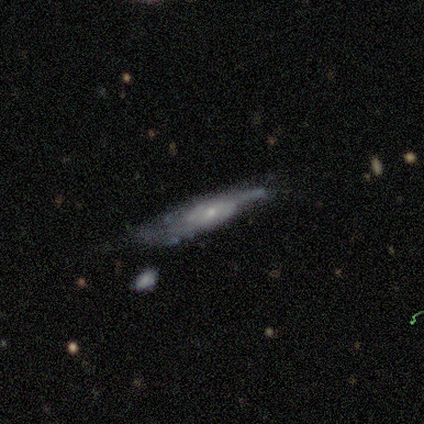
Volunteers were most divided on "merging" (2-way tie): none: 40%, minor disturbance: 40%, major disturbance: 20%, merger: 0%. More confident: edge-on bulge — rounded (100%); smooth or featured — featured or disk (80%); edge-on disk — yes (75%).